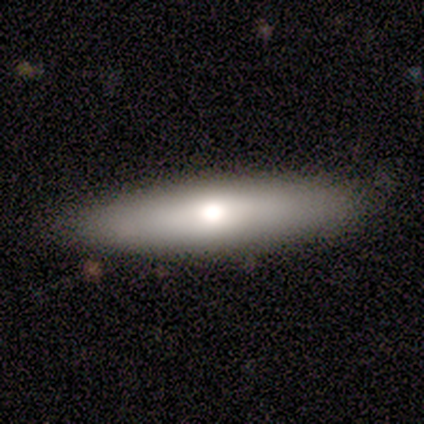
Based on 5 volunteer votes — Smooth or featured?
  - featured or disk: 60% *
  - smooth: 40%
  - star or artifact: 0%
Edge-on disk?
  - no: 67% *
  - yes: 33%
Bar?
  - no: 100% *
  - strong: 0%
  - weak: 0%
Spiral arms?
  - no: 100% *
  - yes: 0%
Bulge size?
  - moderate: 100% *
  - dominant: 0%
  - large: 0%
  - small: 0%
  - none: 0%
Merging?
  - none: 100% *
  - minor disturbance: 0%
  - major disturbance: 0%
  - merger: 0%